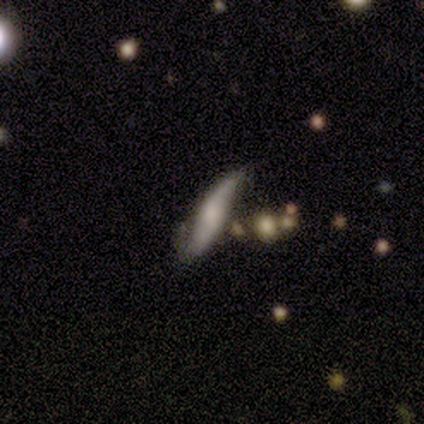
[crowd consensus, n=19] Morphology: type=featured or disk (63%); edge-on=no (67%); bar=no (75%); spiral arms=yes (75%); winding=medium (67%); arm count=2 (50%, tied with can't tell); bulge=moderate (50%, tied with small); merging=none (74%).